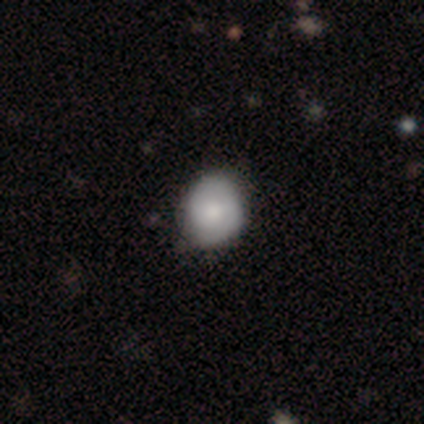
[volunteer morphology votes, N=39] A smooth galaxy with no disk features (69%) that is round (78%). Merging: none (67%).